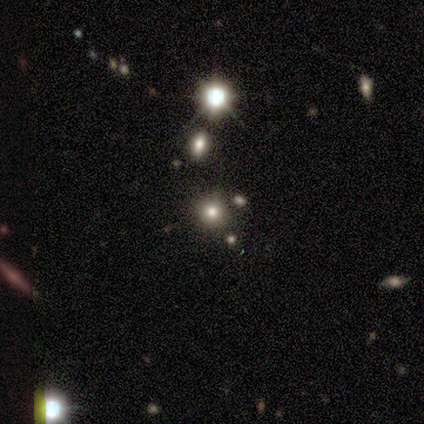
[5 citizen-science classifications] A smooth galaxy with no disk features (60%) that is round (100%). Merging: none (100%).